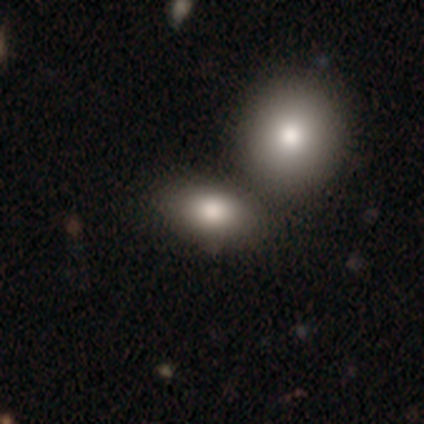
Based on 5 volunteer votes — Overall: smooth (80%). How rounded: in between (100%). Merging: merger (60%; none 40%).